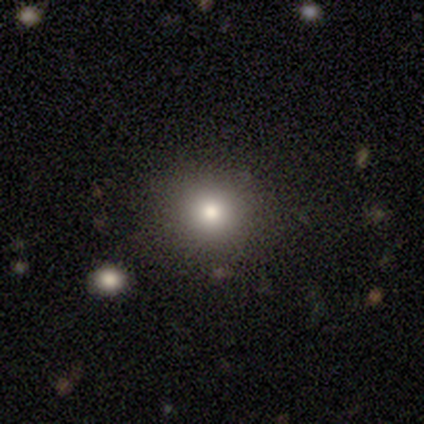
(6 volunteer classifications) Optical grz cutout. It shows a smooth galaxy with no disk features (100%) that is round (67%). Merging: none (83%).